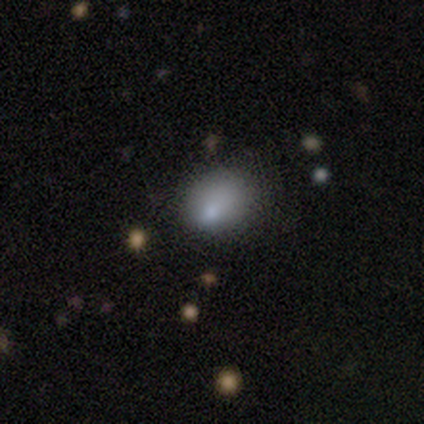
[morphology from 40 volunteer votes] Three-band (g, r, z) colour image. It shows a smooth galaxy with no disk features (70%) that is round (61%). Merging: none (38%).